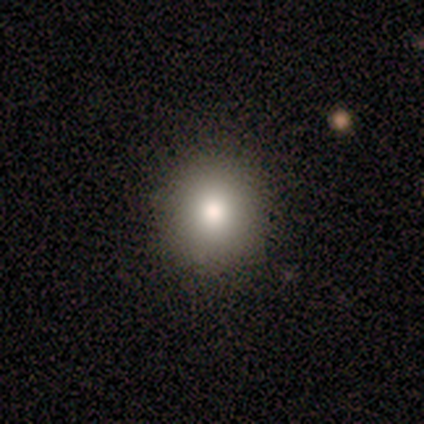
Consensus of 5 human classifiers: smooth_or_featured: smooth (p=1.00)
how_rounded: round (p=0.80) [alt: in between p=0.20]
merging: none (p=0.80) [alt: major disturbance p=0.20]